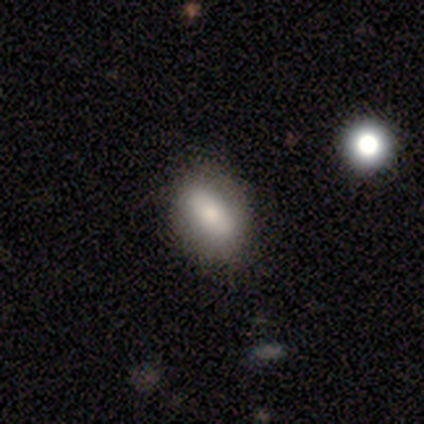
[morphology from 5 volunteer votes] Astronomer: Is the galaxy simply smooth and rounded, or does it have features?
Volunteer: featured or disk — 80%.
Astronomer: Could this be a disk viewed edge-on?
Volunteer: yes — 50%, tied with no at 50%.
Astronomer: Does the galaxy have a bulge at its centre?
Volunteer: none — 50%, tied with rounded at 50%.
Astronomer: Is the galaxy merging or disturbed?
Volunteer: none — 100%.